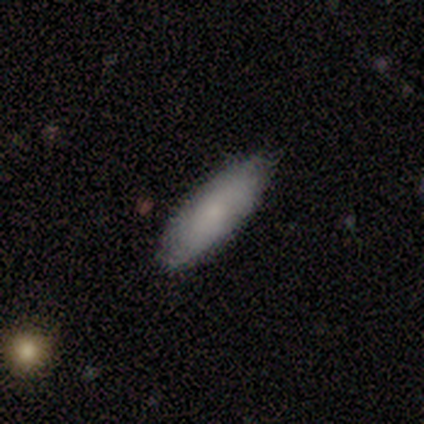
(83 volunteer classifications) Smooth or featured?
  - smooth: 78% *
  - featured or disk: 14%
  - star or artifact: 7%
How rounded?
  - in between: 57% *
  - cigar-shaped: 43%
  - round: 0%
Merging?
  - none: 81% *
  - minor disturbance: 18%
  - merger: 1%
  - major disturbance: 0%